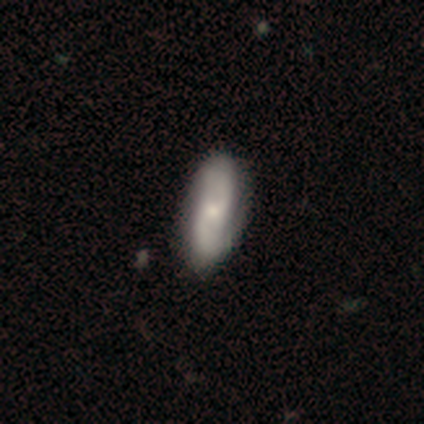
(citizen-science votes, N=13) Q: Smooth or featured?
A: smooth (54%); runner-up: featured or disk (46%)
Q: How rounded?
A: in between (86%); runner-up: cigar-shaped (14%)
Q: Merging?
A: none (77%); runner-up: minor disturbance (23%)